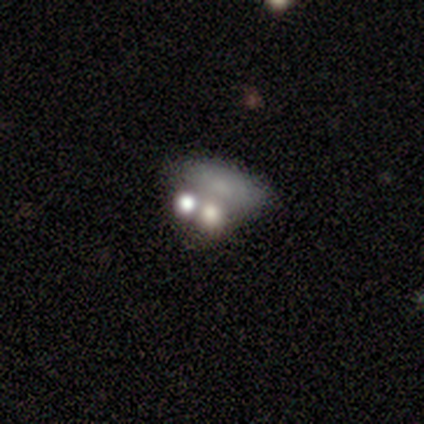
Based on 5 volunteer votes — smooth 60%, featured or disk 20%, star or artifact 20%. Down the decision tree: how rounded — in between (100%); merging — none (50%).